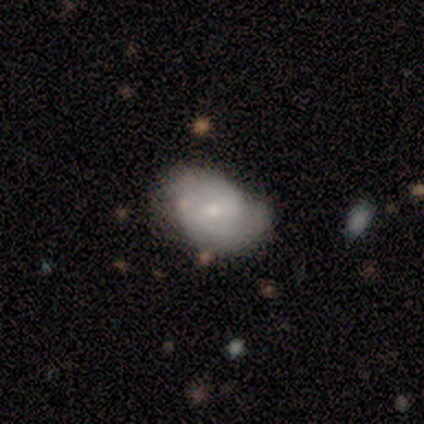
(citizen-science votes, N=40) A featured or disk galaxy (62%) with a weak bar (60%), 2 (68%) tight (42%, tied with medium) spiral arms (76%) and a small central bulge (76%). Merging: none (53%).